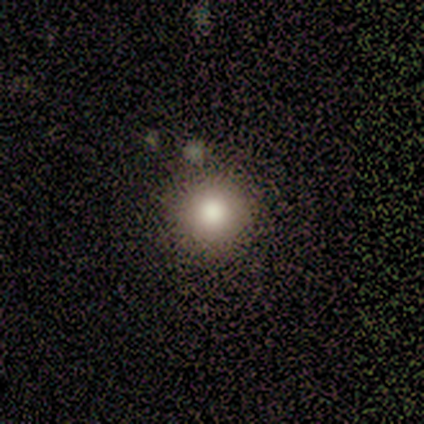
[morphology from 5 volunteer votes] This appears to be a smooth galaxy with no disk features (60%) that is round (100%). Merging: none (67%).